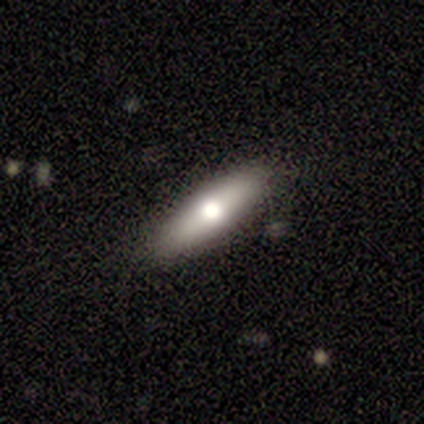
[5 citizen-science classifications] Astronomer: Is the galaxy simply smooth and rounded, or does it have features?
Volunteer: featured or disk — 60% (runner-up: smooth, 40%).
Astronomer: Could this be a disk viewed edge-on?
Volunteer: yes — 67%.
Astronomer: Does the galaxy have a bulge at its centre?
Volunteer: rounded — 100%.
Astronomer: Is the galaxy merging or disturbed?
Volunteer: none — 100%.